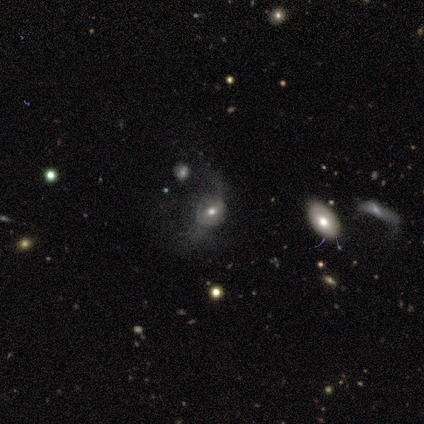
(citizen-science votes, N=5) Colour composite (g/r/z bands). It shows a smooth galaxy with no disk features (60%) that is round (67%). Merging: none (50%, tied with major disturbance).